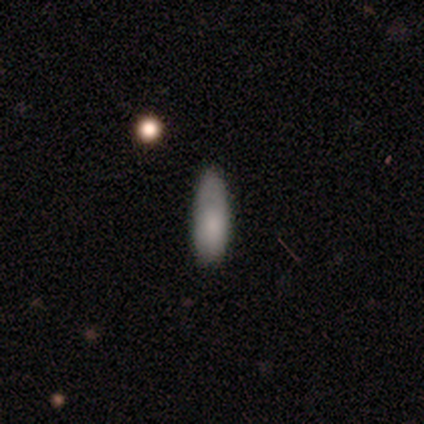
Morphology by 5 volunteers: This appears to be a smooth galaxy with no disk features (100%) that is cigar-shaped (60%). Merging: none (60%).